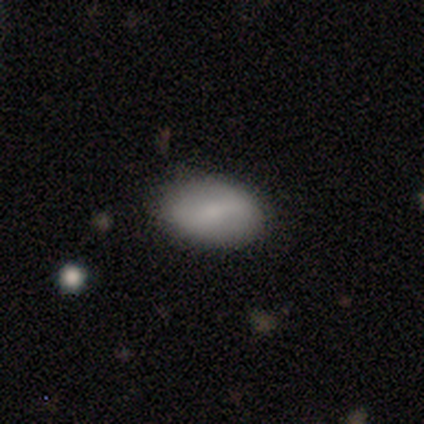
Smooth or featured: featured or disk — 60% (smooth — 20%)
Edge-on disk: no — 100%
Bar: weak — 67% (no — 33%)
Spiral arms: yes — 100%
Spiral winding: medium — 67% (tight — 33%)
Spiral arm count: 2 — 100%
Bulge size: small — 67% (moderate — 33%)
Merging: none — 100%